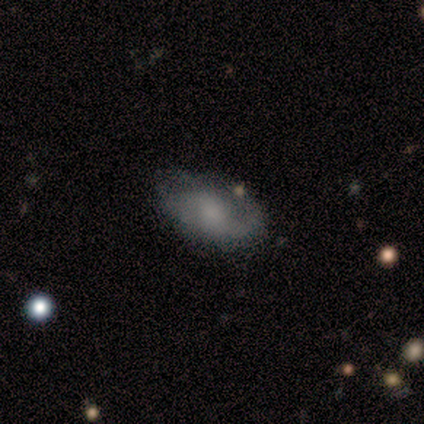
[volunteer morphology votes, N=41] Q: Smooth or featured?
A: featured or disk (63%); runner-up: smooth (29%)
Q: Edge-on disk?
A: no (100%)
Q: Bar?
A: no (81%); runner-up: weak (19%)
Q: Spiral arms?
A: yes (81%); runner-up: no (19%)
Q: Spiral winding?
A: medium (48%); runner-up: tight (29%)
Q: Spiral arm count?
A: 2 (62%); runner-up: 1 (19%)
Q: Bulge size?
A: moderate (31%); tied with: small (31%); none (31%)
Q: Merging?
A: none (58%); runner-up: minor disturbance (32%)